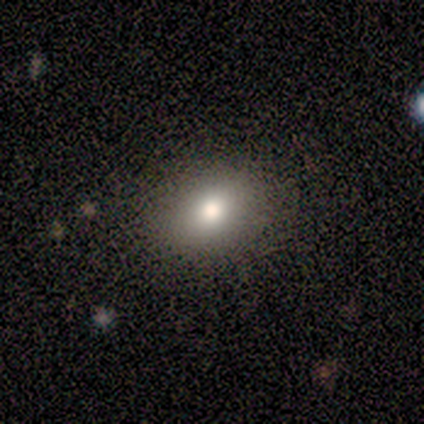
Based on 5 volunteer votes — smooth_or_featured: smooth (p=0.40) [tied with: featured or disk p=0.40]
how_rounded: round (p=0.50) [tied with: in between p=0.50]
merging: none (p=1.00)